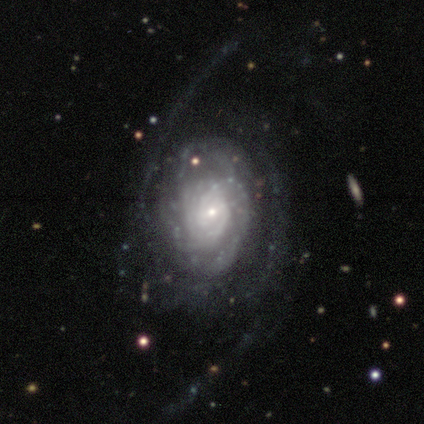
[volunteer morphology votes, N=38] Volunteers were most divided on "spiral winding": tight: 48%, loose: 38%, medium: 14%. More confident: edge-on disk — no (97%); spiral arms — yes (97%); smooth or featured — featured or disk (82%); bulge size — small (73%); bar — no (63%); merging — none (57%); spiral arm count — 2 (52%).